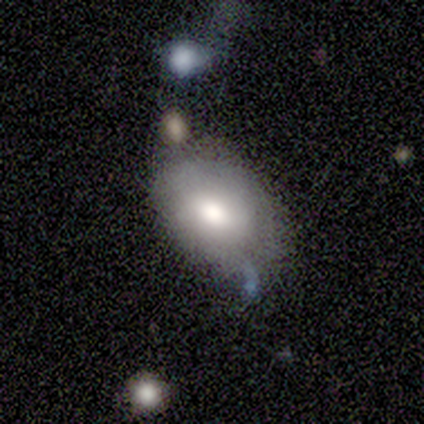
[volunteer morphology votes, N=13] smooth_or_featured: smooth (p=0.85) [alt: featured or disk p=0.15]
how_rounded: in between (p=0.91) [alt: round p=0.09]
merging: none (p=0.46) [alt: minor disturbance p=0.23]